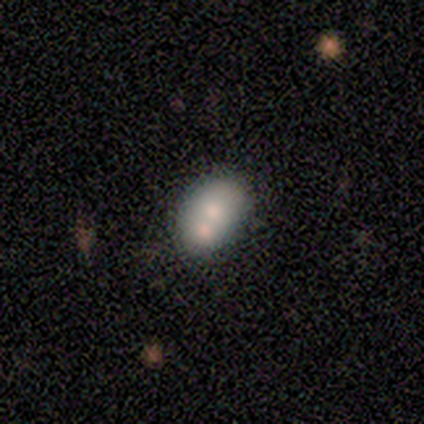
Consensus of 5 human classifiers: featured or disk 60%, smooth 40%, star or artifact 0%. Down the decision tree: edge-on disk — no (67%); bar — no (100%); spiral arms — no (100%); bulge size — moderate (100%); merging — merger (60%).